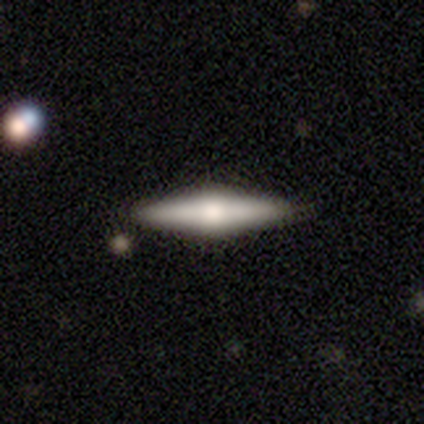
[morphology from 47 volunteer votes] smooth-or-featured: featured or disk: 60% | smooth: 32% | star or artifact: 9%
  disk-edge-on: yes: 100% | no: 0%
    edge-on-bulge: rounded: 89% | none: 7% | boxy: 4%
  merging: none: 88% | minor disturbance: 12% | major disturbance: 0% | merger: 0%